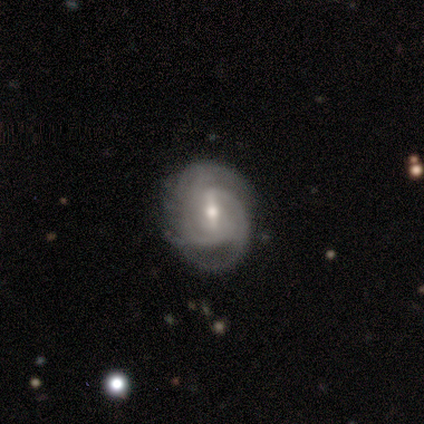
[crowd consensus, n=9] Overall: featured or disk (100%). Edge-on disk: no (100%). Bar: weak (67%; strong 33%). Spiral arms: yes (100%). Spiral arm count: 2 (44%; 3 22%). Spiral winding: tight (56%; medium 44%). Bulge size: moderate (67%; small 33%). Merging: none (78%).